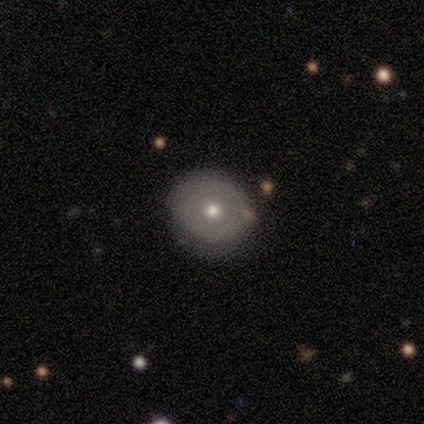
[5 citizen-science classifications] smooth-or-featured: smooth: 80% | star or artifact: 20% | featured or disk: 0%
  how-rounded: round: 75% | in between: 25% | cigar-shaped: 0%
  merging: none: 50% (tied) | minor disturbance: 50% (tied) | major disturbance: 0% | merger: 0%